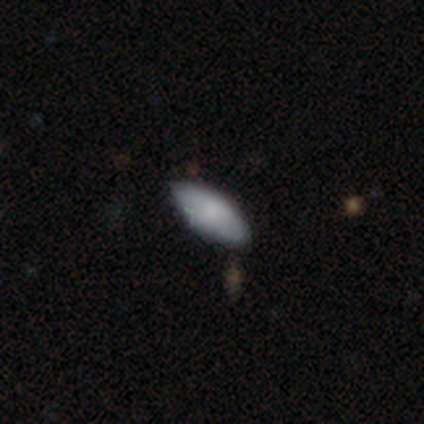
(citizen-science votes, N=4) Smooth or featured? 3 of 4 (75%) said smooth. How rounded? 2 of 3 (67%) said in between. Merging? 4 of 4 (100%) said none.